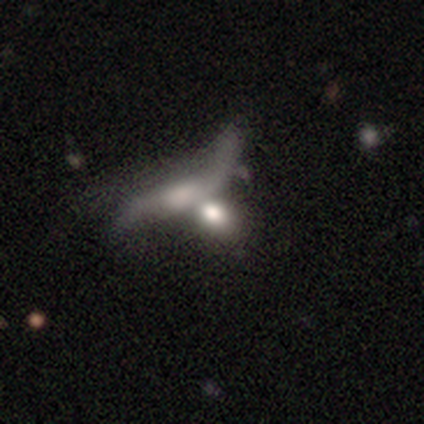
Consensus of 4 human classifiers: A smooth galaxy with no disk features (75%) that is in between round and cigar-shaped (100%).

Vote fractions:
- Smooth or featured? smooth: 75% / featured or disk: 25% / star or artifact: 0%
- How rounded? in between: 100% / round: 0% / cigar-shaped: 0%
- Merging? none: 25% (tied) / minor disturbance: 25% (tied) / major disturbance: 25% (tied) / merger: 25% (tied)